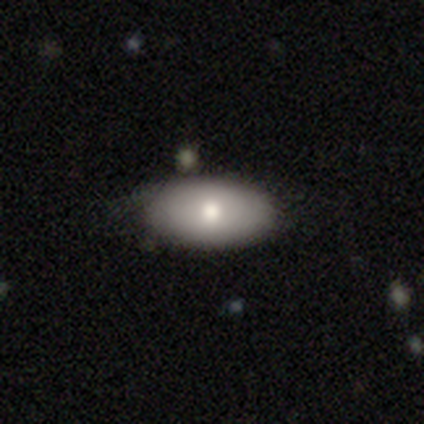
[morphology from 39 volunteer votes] Smooth or featured: smooth — 74% (featured or disk — 26%)
How rounded: in between — 93% (round — 7%)
Merging: none — 54% (minor disturbance — 21%)